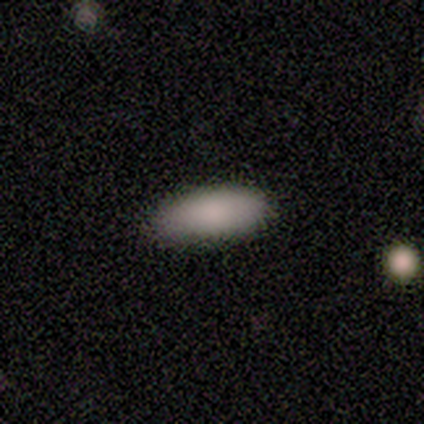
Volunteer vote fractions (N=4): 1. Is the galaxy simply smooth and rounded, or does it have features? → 100% smooth, 0% featured or disk, 0% star or artifact.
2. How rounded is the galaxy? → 100% in between, 0% round, 0% cigar-shaped.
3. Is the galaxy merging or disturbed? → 75% none, 25% minor disturbance, 0% major disturbance, 0% merger.